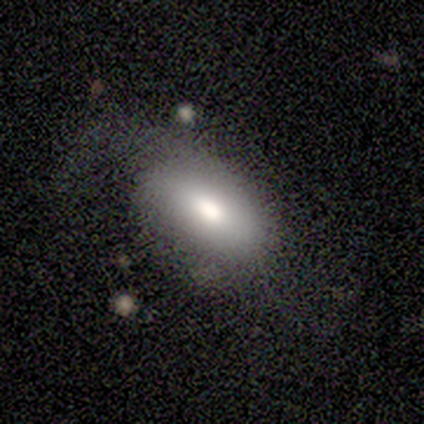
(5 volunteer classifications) smooth 40% (tied), featured or disk 40% (tied), star or artifact 20%. Down the decision tree: how rounded — in between (100%); merging — none (75%).